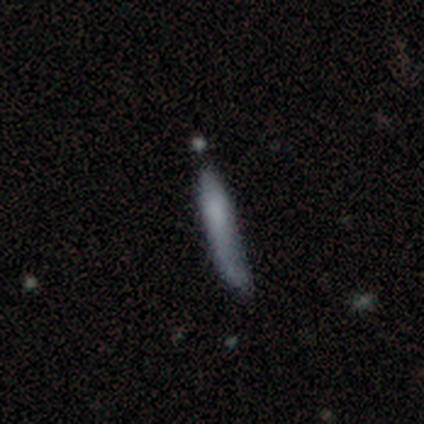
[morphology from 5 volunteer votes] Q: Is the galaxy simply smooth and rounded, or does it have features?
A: smooth — 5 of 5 (100%).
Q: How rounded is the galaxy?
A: cigar-shaped — 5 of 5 (100%).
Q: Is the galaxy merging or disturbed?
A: none — 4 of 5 (80%).